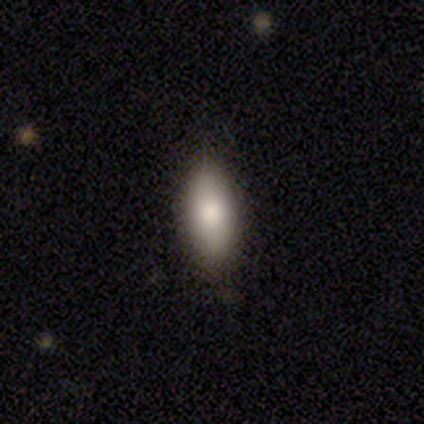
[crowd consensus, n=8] smooth_or_featured: smooth (p=1.00)
how_rounded: in between (p=0.75) [alt: cigar-shaped p=0.25]
merging: none (p=1.00)